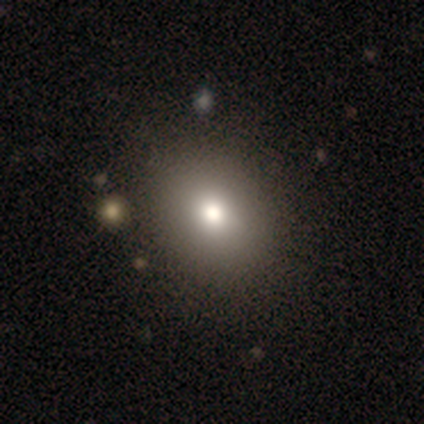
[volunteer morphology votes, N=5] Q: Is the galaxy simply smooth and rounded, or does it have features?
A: smooth — 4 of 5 (80%).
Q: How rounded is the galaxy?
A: round — 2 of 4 (50%, tied with in between).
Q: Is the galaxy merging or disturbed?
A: none — 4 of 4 (100%).